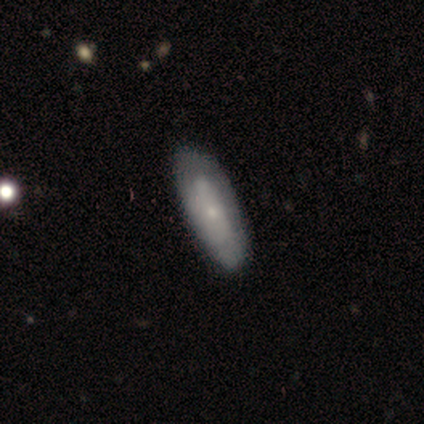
smooth_or_featured: featured or disk (p=0.60) [alt: smooth p=0.40]
disk_edge_on: no (p=0.67) [alt: yes p=0.33]
bar: no (p=0.94) [alt: weak p=0.06]
has_spiral_arms: no (p=0.62) [alt: yes p=0.38]
bulge_size: small (p=0.69) [alt: moderate p=0.19]
merging: none (p=0.40) [alt: minor disturbance p=0.07]